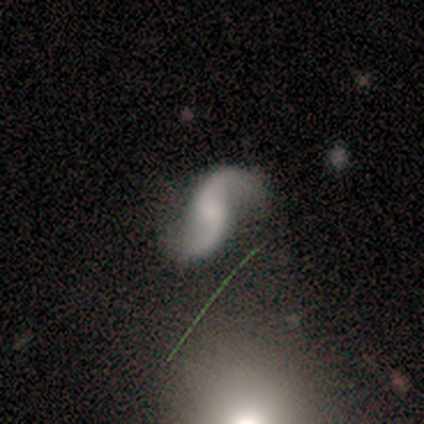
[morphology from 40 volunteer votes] Q: Smooth or featured?
A: featured or disk (95%); runner-up: smooth (2%)
Q: Edge-on disk?
A: no (100%)
Q: Bar?
A: no (55%); runner-up: weak (37%)
Q: Spiral arms?
A: yes (97%); runner-up: no (3%)
Q: Spiral winding?
A: loose (86%); runner-up: medium (11%)
Q: Spiral arm count?
A: 2 (100%)
Q: Bulge size?
A: none (55%); runner-up: small (18%)
Q: Merging?
A: none (74%); runner-up: minor disturbance (10%)